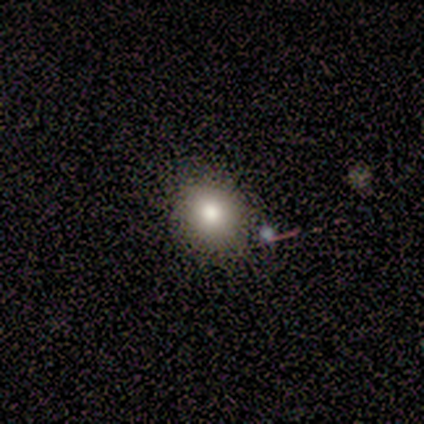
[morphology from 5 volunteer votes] Smooth or featured?
  - smooth: 100% *
  - featured or disk: 0%
  - star or artifact: 0%
How rounded?
  - round: 80% *
  - in between: 20%
  - cigar-shaped: 0%
Merging?
  - none: 80% *
  - minor disturbance: 20%
  - major disturbance: 0%
  - merger: 0%